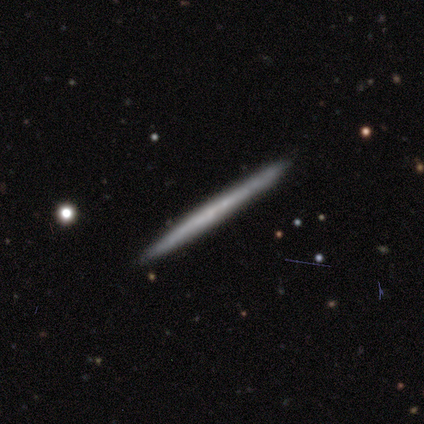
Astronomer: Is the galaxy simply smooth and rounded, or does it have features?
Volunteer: featured or disk — 67%.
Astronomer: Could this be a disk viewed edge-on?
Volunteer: yes — 100%.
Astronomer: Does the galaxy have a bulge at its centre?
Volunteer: none — 100%.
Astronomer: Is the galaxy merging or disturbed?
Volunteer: none — 100%.